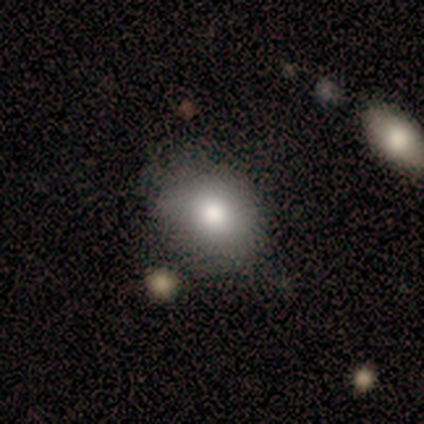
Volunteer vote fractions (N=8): A smooth galaxy with no disk features (88%) that is round (71%). Merging: none (75%).